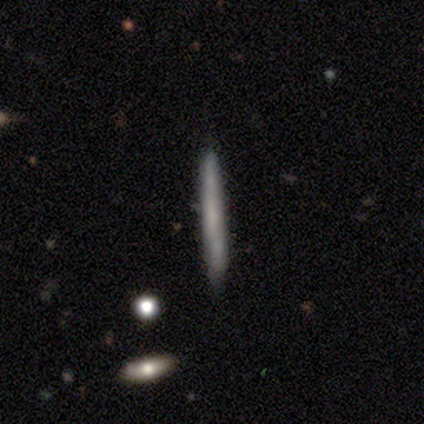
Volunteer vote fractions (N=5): This is likely a featured or disk galaxy (60%). It is clearly viewed edge-on (100%). Edge-on bulge: clearly none (100%). Merging: clearly none (80%).